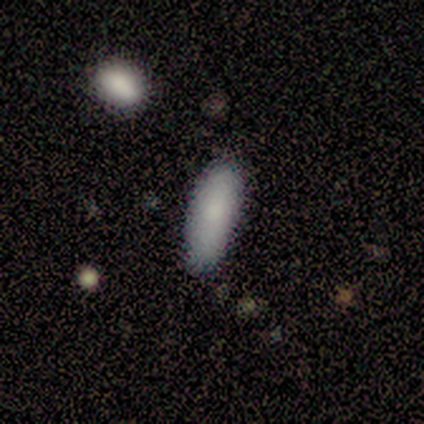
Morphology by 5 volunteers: This is clearly a smooth galaxy (80%). How rounded: likely in between (75%). Merging: likely none (60%).